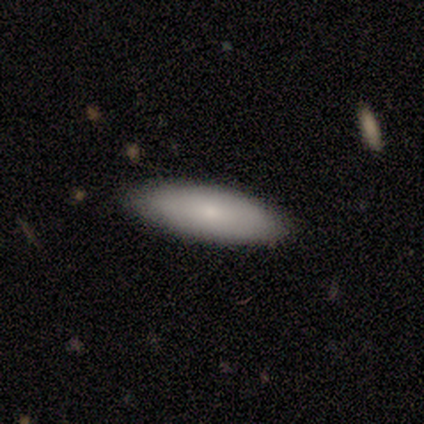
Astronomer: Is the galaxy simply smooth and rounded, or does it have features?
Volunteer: smooth — 75%.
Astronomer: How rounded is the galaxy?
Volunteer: cigar-shaped — 67%.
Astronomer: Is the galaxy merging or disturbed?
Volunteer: none — 100%.